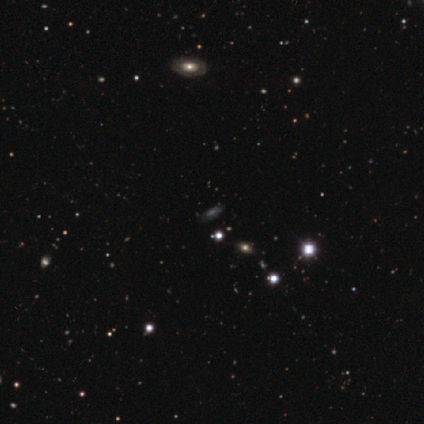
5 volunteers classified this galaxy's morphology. type=star or artifact (60%).